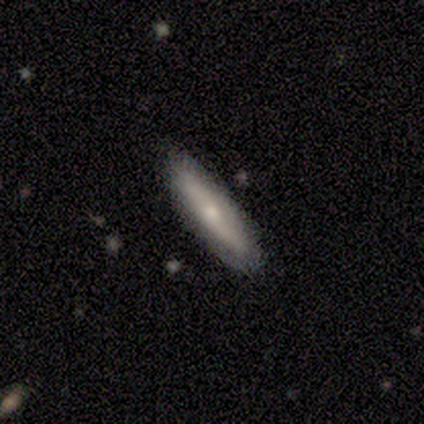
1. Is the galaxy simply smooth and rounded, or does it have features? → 80% smooth, 20% featured or disk, 0% star or artifact.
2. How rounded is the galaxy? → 75% cigar-shaped, 25% in between, 0% round.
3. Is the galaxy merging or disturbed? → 100% none, 0% minor disturbance, 0% major disturbance, 0% merger.